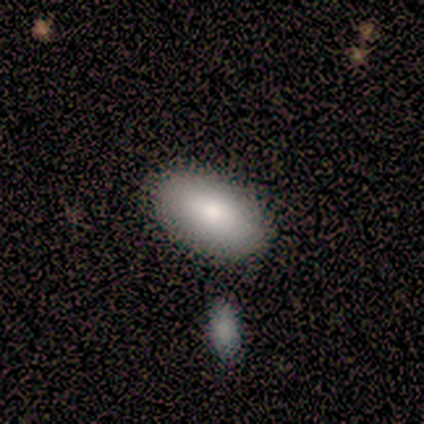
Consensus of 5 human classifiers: Smooth or featured?
  - smooth: 60% *
  - featured or disk: 40%
  - star or artifact: 0%
How rounded?
  - in between: 100% *
  - round: 0%
  - cigar-shaped: 0%
Merging?
  - none: 80% *
  - merger: 20%
  - minor disturbance: 0%
  - major disturbance: 0%